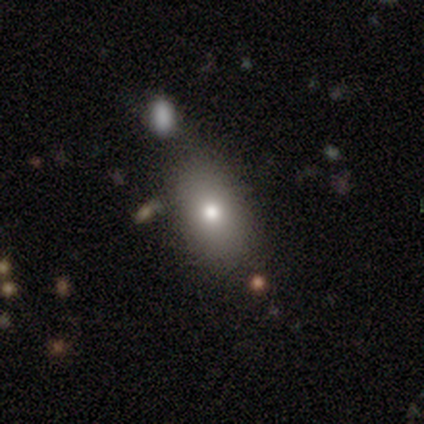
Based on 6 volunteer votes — smooth 67%, featured or disk 33%, star or artifact 0%. Down the decision tree: how rounded — in between (75%); merging — none (83%).